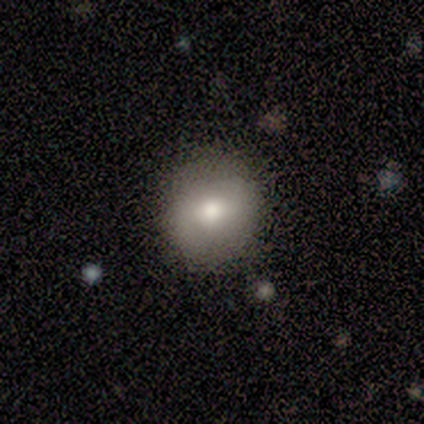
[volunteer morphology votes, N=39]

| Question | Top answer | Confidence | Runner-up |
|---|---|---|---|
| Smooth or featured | smooth | 64% | featured or disk (21%) |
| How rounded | round | 96% | in between (4%) |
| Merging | none | 94% | minor disturbance (3%) |